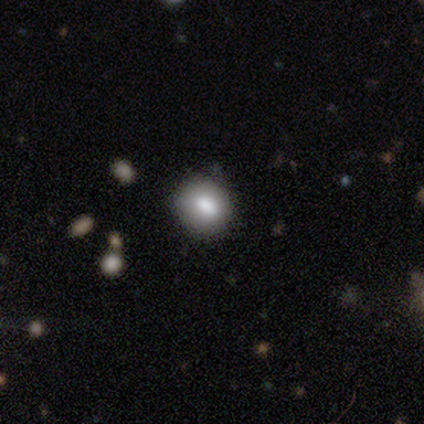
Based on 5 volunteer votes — This appears to be a smooth galaxy with no disk features (80%) that is round (75%). Merging: none (80%).